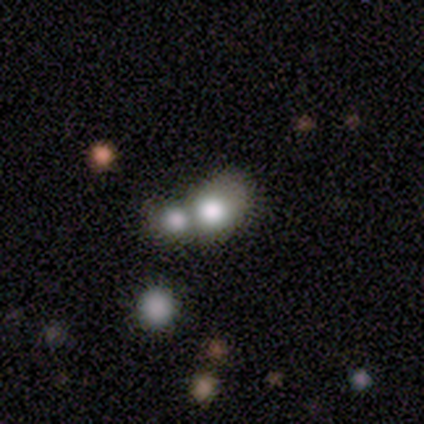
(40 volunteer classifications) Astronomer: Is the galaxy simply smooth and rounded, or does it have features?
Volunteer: smooth — 72%.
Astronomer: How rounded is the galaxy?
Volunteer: round — 55% (runner-up: in between, 41%).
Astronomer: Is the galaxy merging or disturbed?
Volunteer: merger — 53%.